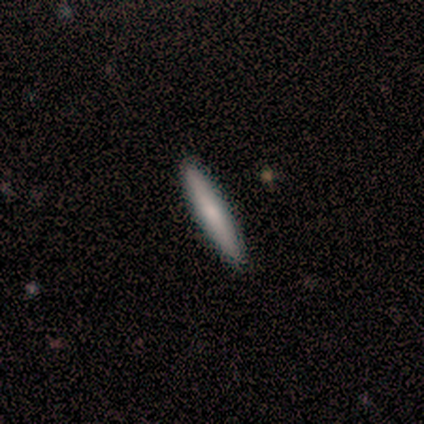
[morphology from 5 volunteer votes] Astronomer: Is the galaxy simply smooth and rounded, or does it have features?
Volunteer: smooth — 60% (runner-up: featured or disk, 40%).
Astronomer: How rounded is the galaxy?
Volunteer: cigar-shaped — 100%.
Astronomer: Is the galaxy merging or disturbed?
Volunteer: none — 100%.